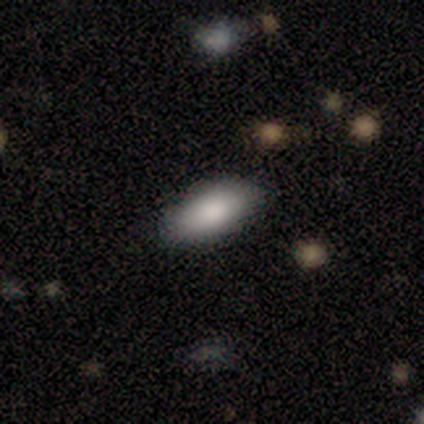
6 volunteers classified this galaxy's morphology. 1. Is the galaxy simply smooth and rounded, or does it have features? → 100% smooth, 0% featured or disk, 0% star or artifact.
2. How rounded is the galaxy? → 100% in between, 0% round, 0% cigar-shaped.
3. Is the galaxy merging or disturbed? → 67% none, 33% minor disturbance, 0% major disturbance, 0% merger.